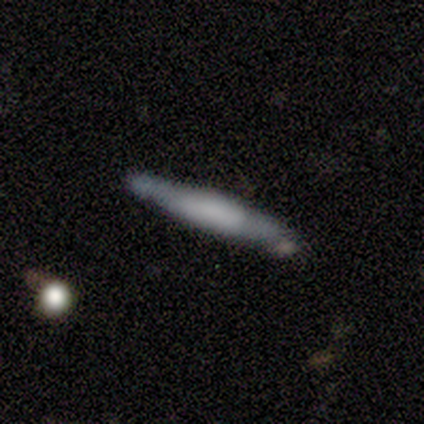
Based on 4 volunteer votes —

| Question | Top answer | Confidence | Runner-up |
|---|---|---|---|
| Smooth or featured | smooth | 50% | tied: featured or disk (50%) |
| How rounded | cigar-shaped | 100% | — |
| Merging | none | 50% | tied: minor disturbance (50%) |